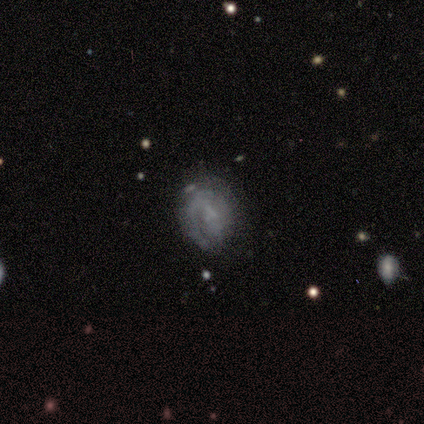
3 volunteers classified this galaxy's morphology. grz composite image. It shows a smooth galaxy with no disk features (33%, tied with featured or disk and star or artifact) that is in between round and cigar-shaped (100%). Merging: none (100%).